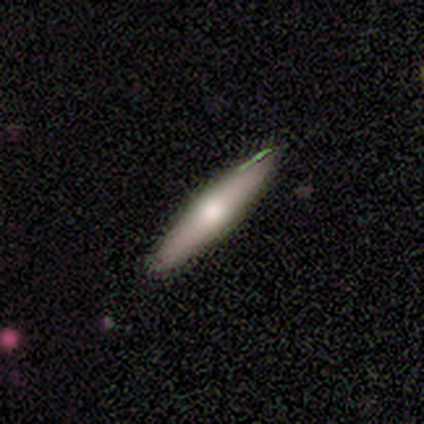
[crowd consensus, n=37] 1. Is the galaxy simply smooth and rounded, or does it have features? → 62% smooth, 32% featured or disk, 5% star or artifact.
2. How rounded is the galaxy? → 87% cigar-shaped, 13% in between, 0% round.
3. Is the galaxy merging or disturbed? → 80% none, 14% minor disturbance, 3% major disturbance, 3% merger.